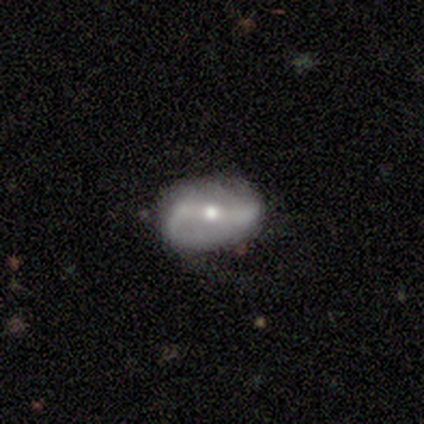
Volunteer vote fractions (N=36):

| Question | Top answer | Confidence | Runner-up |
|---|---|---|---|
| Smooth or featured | featured or disk | 75% | smooth (17%) |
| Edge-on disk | no | 96% | yes (4%) |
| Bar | strong | 42% | weak (38%) |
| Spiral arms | yes | 77% | no (23%) |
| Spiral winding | loose | 75% | medium (25%) |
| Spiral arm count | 2 | 95% | 3 (5%) |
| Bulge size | moderate | 62% | small (31%) |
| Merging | none | 73% | minor disturbance (15%) |